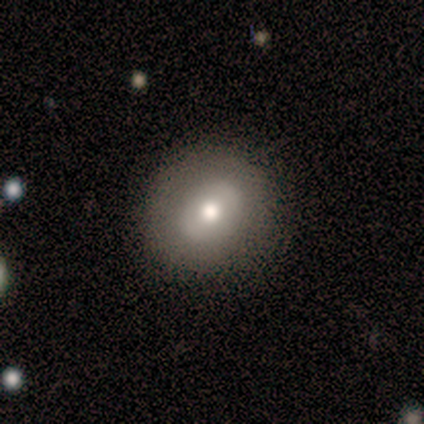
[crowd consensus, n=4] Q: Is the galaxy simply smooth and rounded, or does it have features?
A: featured or disk — 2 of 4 (50%).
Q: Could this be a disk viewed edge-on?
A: no — 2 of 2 (100%).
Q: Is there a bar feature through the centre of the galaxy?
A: weak — 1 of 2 (50%, tied with no).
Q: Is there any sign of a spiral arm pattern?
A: no — 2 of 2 (100%).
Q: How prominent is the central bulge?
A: moderate — 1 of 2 (50%, tied with small).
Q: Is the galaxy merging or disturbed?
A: none — 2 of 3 (67%).